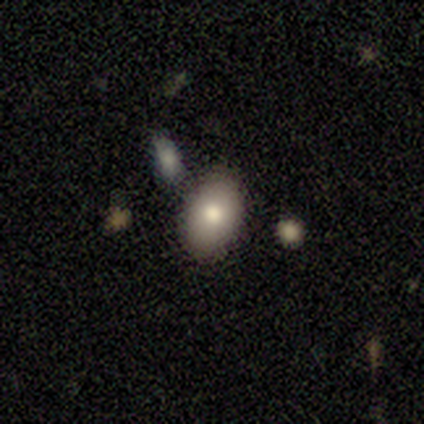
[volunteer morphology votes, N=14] smooth_or_featured: smooth (p=0.86) [alt: featured or disk p=0.14]
how_rounded: in between (p=0.92) [alt: round p=0.08]
merging: none (p=0.79) [alt: minor disturbance p=0.14]